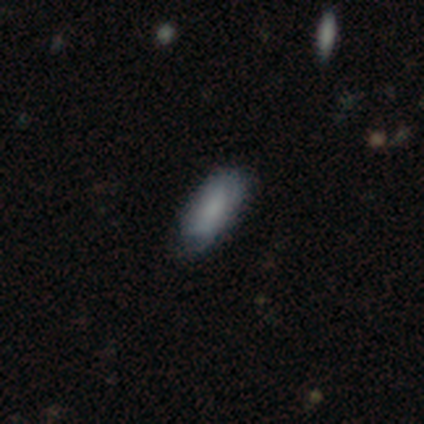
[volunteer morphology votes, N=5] Overall: smooth (80%). How rounded: in between (50%, tied with cigar-shaped). Merging: none (80%).